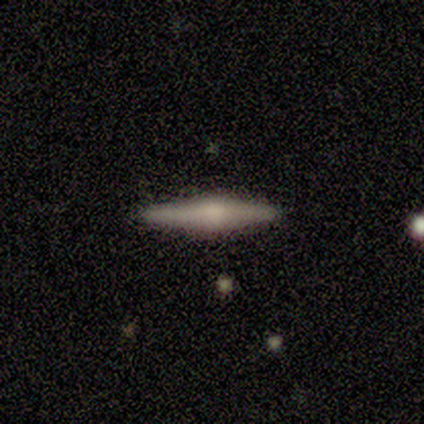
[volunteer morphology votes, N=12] smooth_or_featured: featured or disk (p=0.83) [alt: smooth p=0.08]
disk_edge_on: yes (p=0.90) [alt: no p=0.10]
edge_on_bulge: rounded (p=1.00)
merging: none (p=1.00)